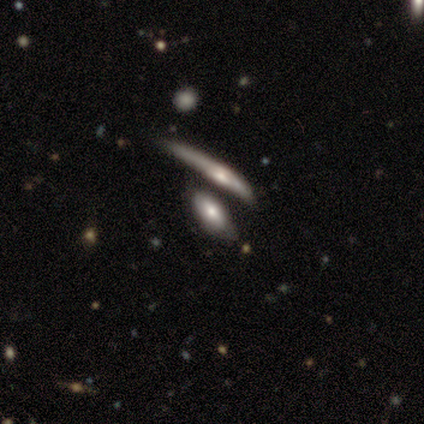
Q: Smooth or featured?
A: featured or disk (60%); runner-up: smooth (40%)
Q: Edge-on disk?
A: no (67%); runner-up: yes (33%)
Q: Bar?
A: weak (50%); tied with: no (50%)
Q: Spiral arms?
A: no (100%)
Q: Bulge size?
A: large (50%); tied with: small (50%)
Q: Merging?
A: major disturbance (40%); tied with: merger (40%)